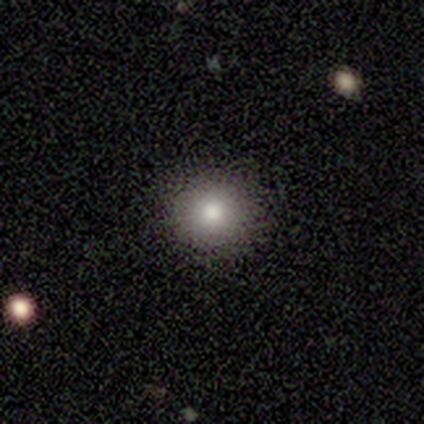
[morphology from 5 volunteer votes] A smooth galaxy with no disk features (80%) that is round (100%).

Vote fractions:
- Smooth or featured? smooth: 80% / star or artifact: 20% / featured or disk: 0%
- How rounded? round: 100% / in between: 0% / cigar-shaped: 0%
- Merging? none: 75% / minor disturbance: 25% / major disturbance: 0% / merger: 0%